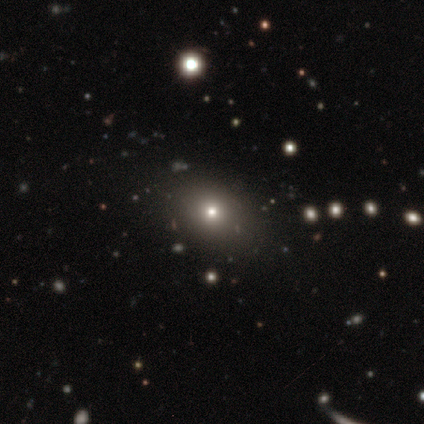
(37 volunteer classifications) Q: Smooth or featured?
A: smooth (73%); runner-up: star or artifact (22%)
Q: How rounded?
A: in between (56%); runner-up: round (41%)
Q: Merging?
A: none (93%); runner-up: minor disturbance (3%)